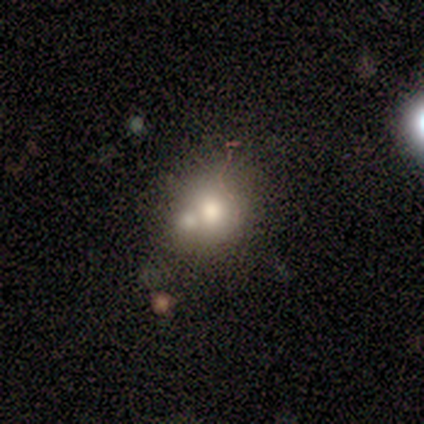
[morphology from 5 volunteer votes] A featured or disk galaxy (60%) with no bar (100%), no spiral arms (100%) and a moderate central bulge (100%). Merging: merger (60%).